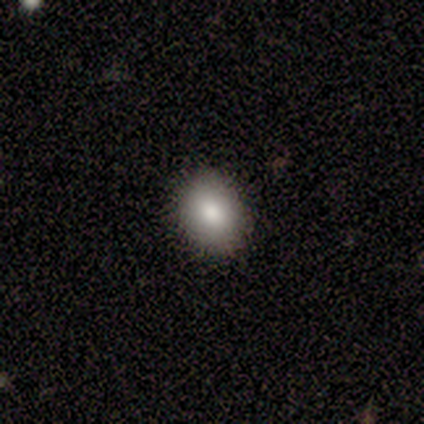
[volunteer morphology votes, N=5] This is clearly a smooth galaxy (80%). How rounded: likely in between (75%). Merging: clearly none (100%).